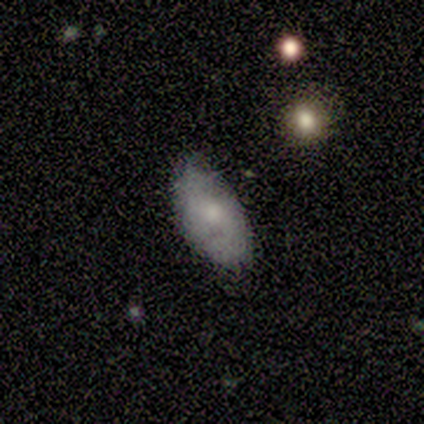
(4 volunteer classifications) Smooth or featured?
  - smooth: 50% *
  - featured or disk: 25%
  - star or artifact: 25%
How rounded?
  - in between: 100% *
  - round: 0%
  - cigar-shaped: 0%
Merging?
  - minor disturbance: 67% *
  - none: 33%
  - major disturbance: 0%
  - merger: 0%